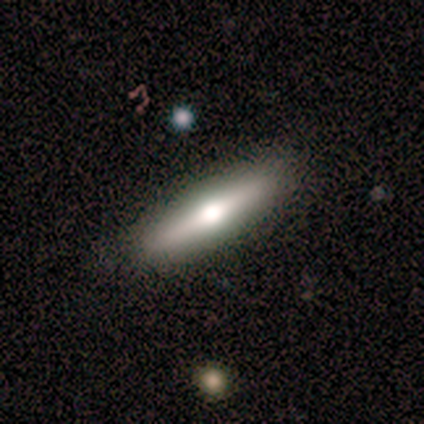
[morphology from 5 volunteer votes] Smooth or featured?
  - smooth: 60% *
  - featured or disk: 40%
  - star or artifact: 0%
How rounded?
  - cigar-shaped: 67% *
  - in between: 33%
  - round: 0%
Merging?
  - none: 80% *
  - minor disturbance: 20%
  - major disturbance: 0%
  - merger: 0%